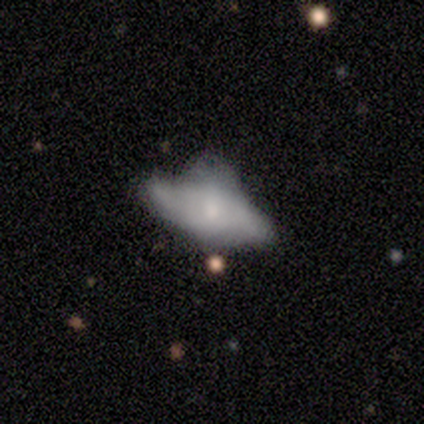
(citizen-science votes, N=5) This appears to be a featured or disk galaxy (60%) with no bar (67%), 2 (100%) medium (50%, tied with loose) spiral arms (67%) and a small central bulge (67%). Merging: minor disturbance (40%, tied with major disturbance).